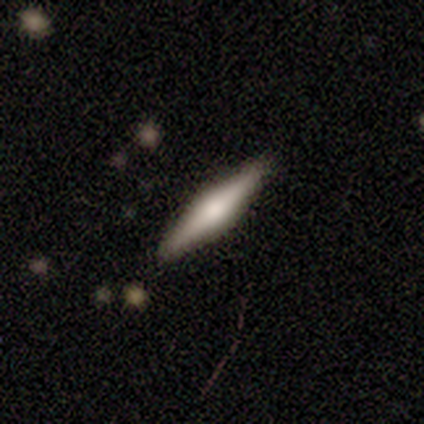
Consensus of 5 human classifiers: This is clearly a smooth galaxy (80%). How rounded: likely cigar-shaped (75%). Merging: clearly none (100%).